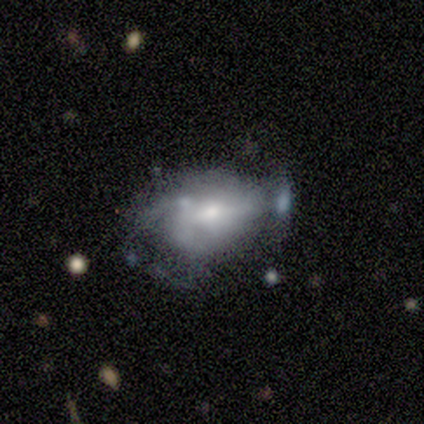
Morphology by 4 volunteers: Smooth or featured? 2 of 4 (50%, tied with featured or disk) said smooth. How rounded? 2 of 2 (100%) said in between. Merging? 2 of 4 (50%) said none.